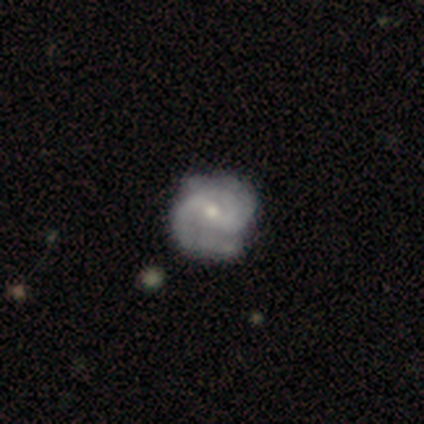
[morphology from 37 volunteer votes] smooth-or-featured: featured or disk: 86% | smooth: 11% | star or artifact: 3%
  disk-edge-on: no: 100% | yes: 0%
    bar: weak: 47% | no: 38% | strong: 16%
    has-spiral-arms: yes: 100% | no: 0%
      spiral-winding: medium: 50% | tight: 34% | loose: 16%
      spiral-arm-count: 2: 56% | 3: 28% | can't tell: 9% | 1: 3% | 4: 3% | more than 4: 0%
    bulge-size: moderate: 56% | small: 44% | dominant: 0% | large: 0% | none: 0%
  merging: none: 36% | minor disturbance: 19% | major disturbance: 8% | merger: 6%